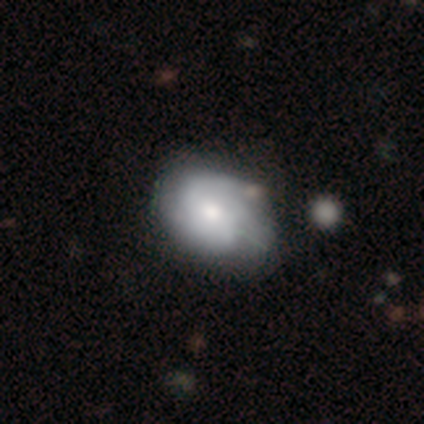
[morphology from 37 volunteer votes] Q: Smooth or featured?
A: featured or disk (59%); runner-up: smooth (35%)
Q: Edge-on disk?
A: no (95%); runner-up: yes (5%)
Q: Bar?
A: no (71%); runner-up: weak (24%)
Q: Spiral arms?
A: yes (81%); runner-up: no (19%)
Q: Spiral winding?
A: medium (71%); runner-up: tight (24%)
Q: Spiral arm count?
A: 2 (35%); runner-up: 3 (29%)
Q: Bulge size?
A: moderate (67%); runner-up: large (24%)
Q: Merging?
A: none (46%); runner-up: minor disturbance (14%)